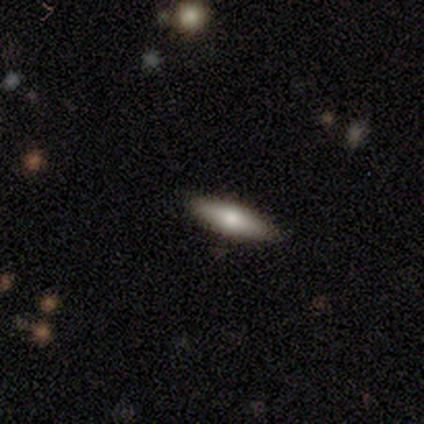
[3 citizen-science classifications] smooth_or_featured: smooth (p=1.00)
how_rounded: cigar-shaped (p=0.67) [alt: in between p=0.33]
merging: none (p=0.67) [alt: minor disturbance p=0.33]